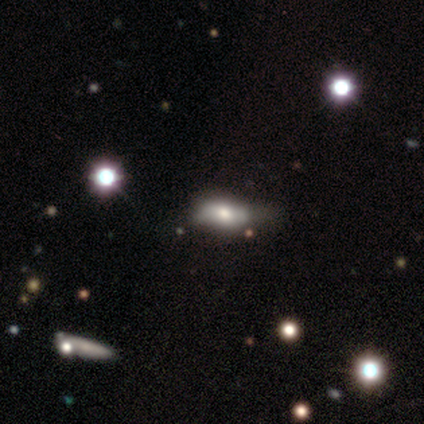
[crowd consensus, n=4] Smooth or featured?
  - smooth: 50% * (tied)
  - featured or disk: 50% * (tied)
  - star or artifact: 0%
How rounded?
  - in between: 100% *
  - round: 0%
  - cigar-shaped: 0%
Merging?
  - none: 100% *
  - minor disturbance: 0%
  - major disturbance: 0%
  - merger: 0%